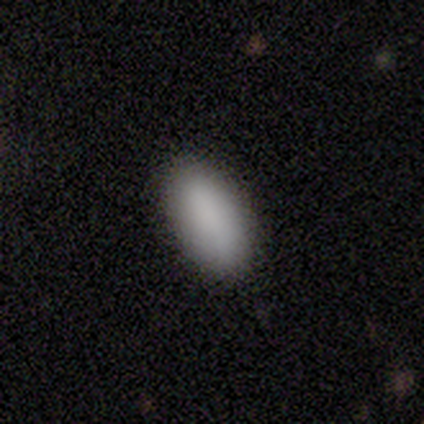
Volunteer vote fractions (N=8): smooth-or-featured: smooth: 100% | featured or disk: 0% | star or artifact: 0%
  how-rounded: in between: 75% | cigar-shaped: 25% | round: 0%
  merging: none: 100% | minor disturbance: 0% | major disturbance: 0% | merger: 0%